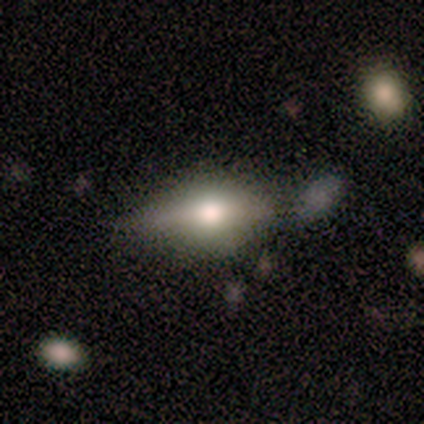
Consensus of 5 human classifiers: Morphology: type=smooth (60%); roundness=in between (100%); merging=none (60%).